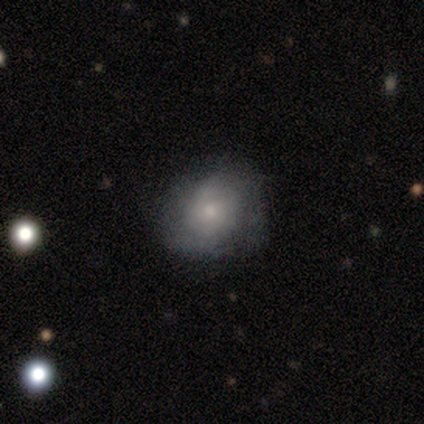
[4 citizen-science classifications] A smooth galaxy with no disk features (75%) that is in between round and cigar-shaped (67%).

Vote fractions:
- Smooth or featured? smooth: 75% / featured or disk: 25% / star or artifact: 0%
- How rounded? in between: 67% / round: 33% / cigar-shaped: 0%
- Merging? none: 75% / major disturbance: 25% / minor disturbance: 0% / merger: 0%